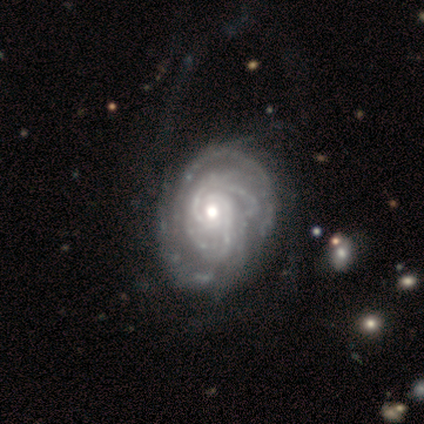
Smooth or featured? 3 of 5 (60%) said featured or disk. Edge-on disk? 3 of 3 (100%) said no. Bar? 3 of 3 (100%) said no. Spiral arms? 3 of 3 (100%) said yes. Spiral winding? 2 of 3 (67%) said tight. Spiral arm count? 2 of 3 (67%) said more than 4. Bulge size? 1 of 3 (33%, tied with moderate and small) said large. Merging? 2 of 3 (67%) said none.